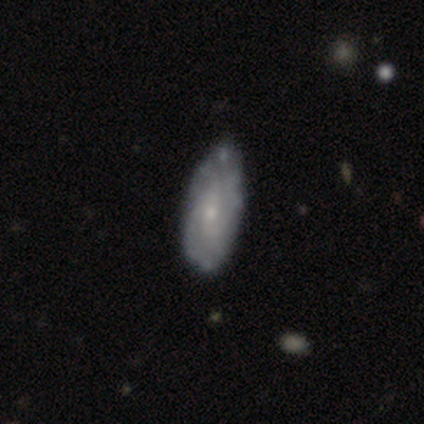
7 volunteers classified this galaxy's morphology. smooth-or-featured: featured or disk: 71% | smooth: 29% | star or artifact: 0%
  disk-edge-on: no: 80% | yes: 20%
    bar: no: 75% | weak: 25% | strong: 0%
    has-spiral-arms: yes: 100% | no: 0%
      spiral-winding: tight: 50% (tied) | medium: 50% (tied) | loose: 0%
      spiral-arm-count: 1: 25% (tied) | 3: 25% (tied) | 4: 25% (tied) | can't tell: 25% (tied) | 2: 0% | more than 4: 0%
    bulge-size: small: 75% | moderate: 25% | dominant: 0% | large: 0% | none: 0%
  merging: none: 57% | minor disturbance: 29% | major disturbance: 14% | merger: 0%